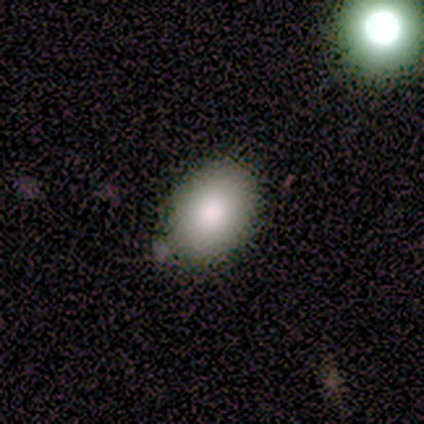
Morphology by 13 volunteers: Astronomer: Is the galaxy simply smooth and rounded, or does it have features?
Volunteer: smooth — 77%.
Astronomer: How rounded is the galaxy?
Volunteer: in between — 100%.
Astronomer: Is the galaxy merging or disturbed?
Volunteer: none — 100%.